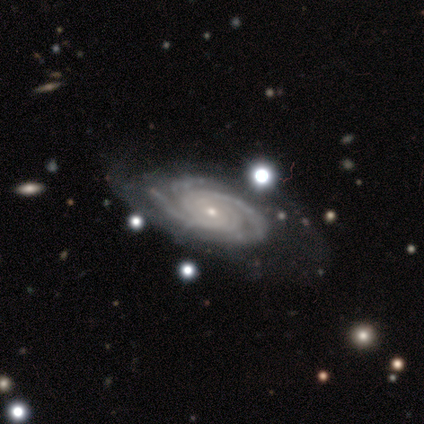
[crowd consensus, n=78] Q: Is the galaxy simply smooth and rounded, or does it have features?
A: featured or disk — 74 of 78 (95%).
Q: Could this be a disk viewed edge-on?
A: no — 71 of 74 (96%).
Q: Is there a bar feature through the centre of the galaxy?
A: no — 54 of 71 (76%).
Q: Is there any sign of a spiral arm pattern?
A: yes — 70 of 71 (99%).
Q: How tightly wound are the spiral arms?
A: tight — 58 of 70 (83%).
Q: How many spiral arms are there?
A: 3 — 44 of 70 (63%).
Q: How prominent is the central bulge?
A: small — 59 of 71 (83%).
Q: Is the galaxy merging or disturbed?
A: none — 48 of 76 (63%).